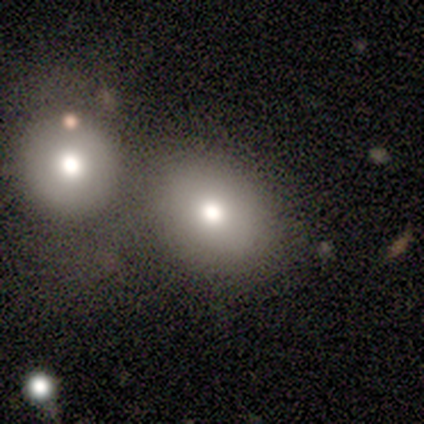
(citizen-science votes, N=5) Volunteers were most divided on "how rounded": in between: 67%, round: 33%, cigar-shaped: 0%. More confident: merging — none (75%); smooth or featured — smooth (60%).